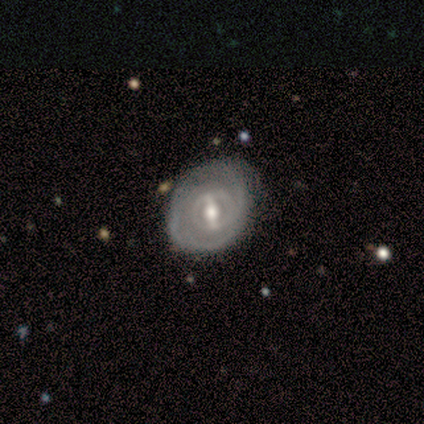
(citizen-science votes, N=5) Morphology: type=featured or disk (100%); edge-on=no (100%); bar=strong (80%); spiral arms=yes (100%); winding=tight (80%); arm count=can't tell (40%); bulge=moderate (60%); merging=none (60%).